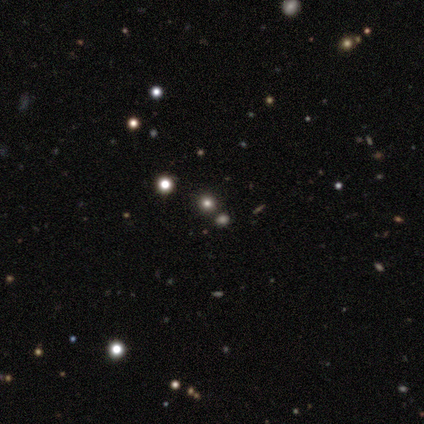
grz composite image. It shows a smooth galaxy with no disk features (100%) that is round (100%). Merging: none (100%).